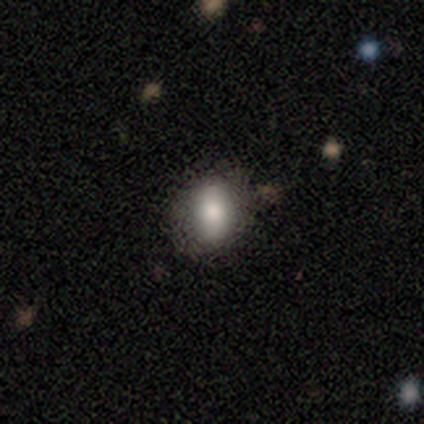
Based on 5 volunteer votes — Overall: smooth (80%). How rounded: round (50%, tied with in between). Merging: none (75%).